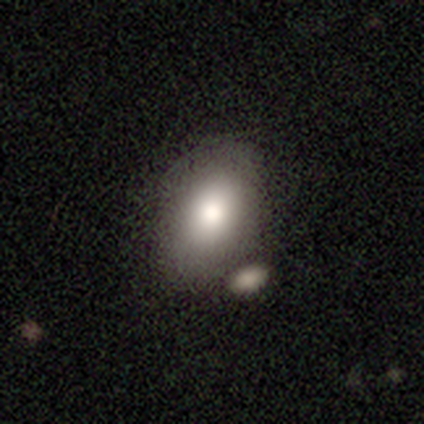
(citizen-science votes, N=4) Smooth or featured? smooth (50%, tied with featured or disk)
How rounded? in between (100%)
Merging? none (75%)